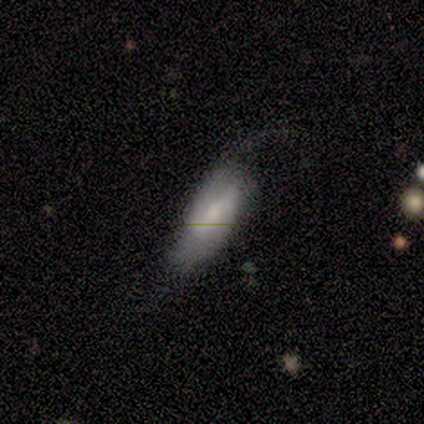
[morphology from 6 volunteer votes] A featured or disk galaxy (67%) with a strong bar (50%, tied with weak), 2 (75%) loose (75%) spiral arms (100%) and a moderate central bulge (75%). Merging: none (33%, tied with minor disturbance and major disturbance).